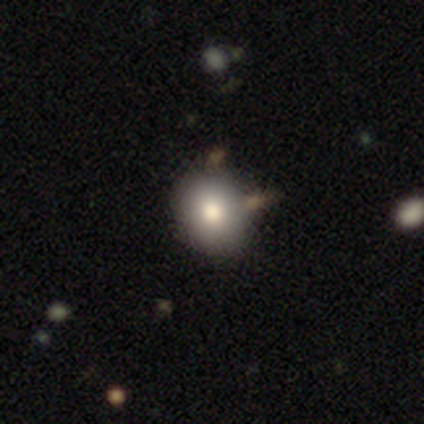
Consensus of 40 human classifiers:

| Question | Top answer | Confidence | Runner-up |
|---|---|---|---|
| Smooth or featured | smooth | 80% | featured or disk (18%) |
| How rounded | round | 59% | in between (41%) |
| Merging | none | 46% | merger (13%) |